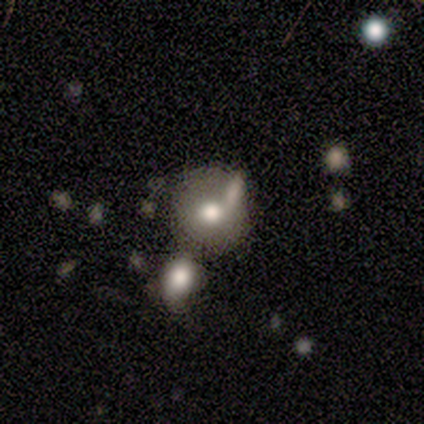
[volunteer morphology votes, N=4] Overall: smooth (75%). How rounded: round (100%). Merging: none (67%; merger 33%).